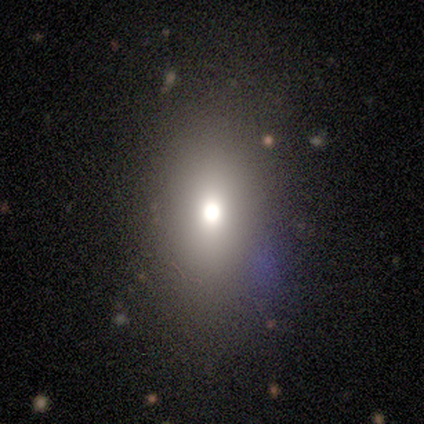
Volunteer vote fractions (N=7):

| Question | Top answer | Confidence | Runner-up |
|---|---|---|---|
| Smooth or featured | smooth | 57% | featured or disk (29%) |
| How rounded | in between | 75% | cigar-shaped (25%) |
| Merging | none | 83% | minor disturbance (17%) |